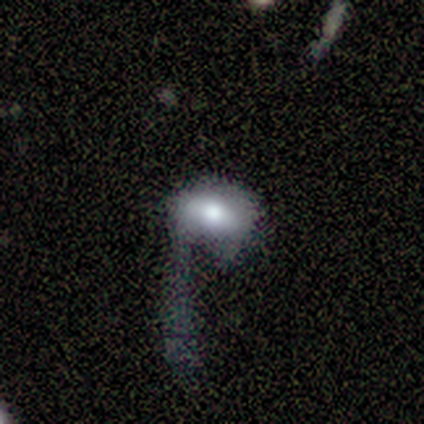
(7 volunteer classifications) This appears to be a smooth galaxy with no disk features (57%) that is in between round and cigar-shaped (75%). Merging: major disturbance (83%).